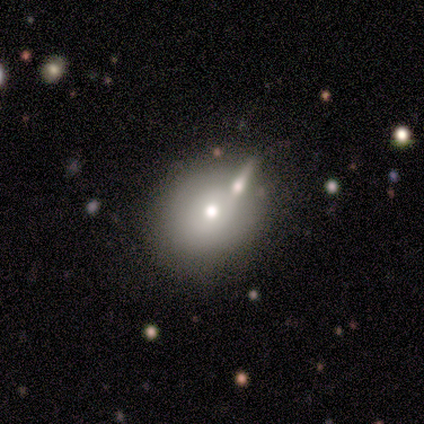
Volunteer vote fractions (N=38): smooth_or_featured: smooth (p=0.71) [alt: featured or disk p=0.16]
how_rounded: in between (p=0.52) [alt: round p=0.48]
merging: merger (p=0.45) [alt: none p=0.12]